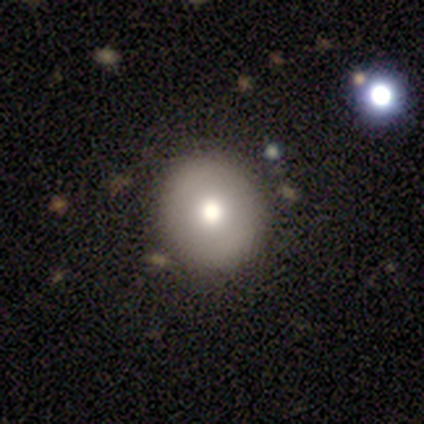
smooth-or-featured: smooth: 62% | featured or disk: 25% | star or artifact: 12%
  how-rounded: round: 100% | in between: 0% | cigar-shaped: 0%
  merging: none: 86% | minor disturbance: 14% | major disturbance: 0% | merger: 0%